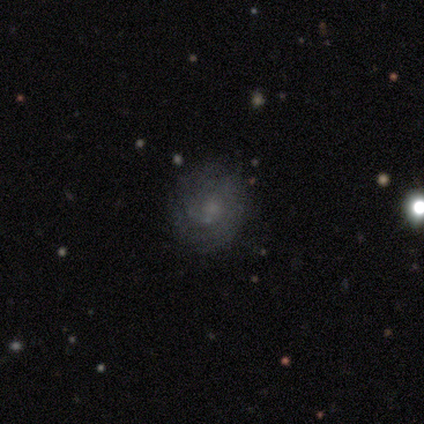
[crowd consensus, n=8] Morphology: type=featured or disk (88%); edge-on=no (100%); bar=no (100%); spiral arms=yes (71%); winding=tight (80%); arm count=can't tell (100%); bulge=moderate (43%, tied with none); merging=none (88%).